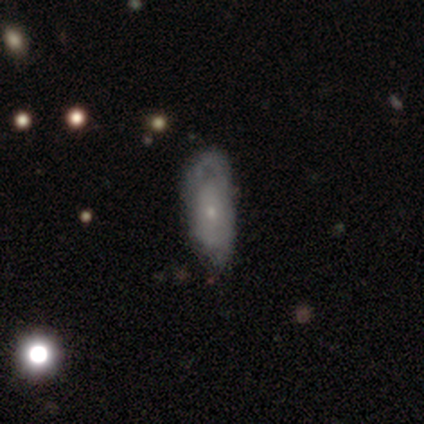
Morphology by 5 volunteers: A smooth galaxy with no disk features (60%) that is in between round and cigar-shaped (67%).

Vote fractions:
- Smooth or featured? smooth: 60% / featured or disk: 40% / star or artifact: 0%
- How rounded? in between: 67% / round: 33% / cigar-shaped: 0%
- Merging? minor disturbance: 40% / none: 20% / major disturbance: 20% / merger: 20%